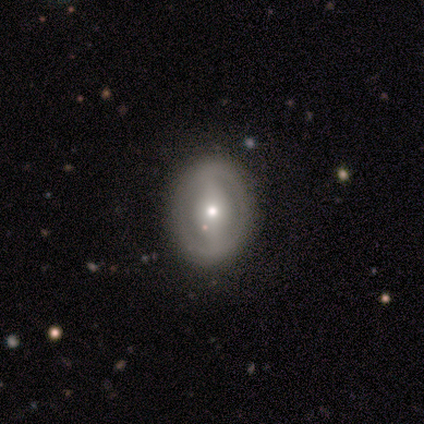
Morphology: type=smooth (75%); roundness=in between (100%); merging=minor disturbance (50%).